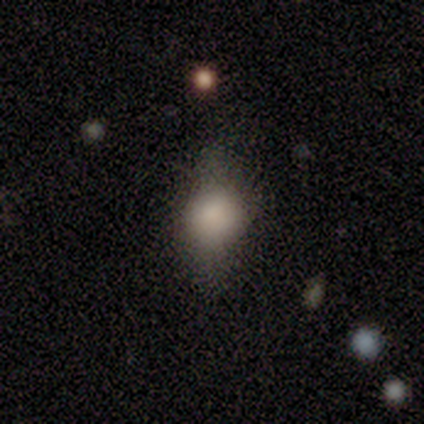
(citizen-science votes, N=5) Q: Smooth or featured?
A: smooth (60%); runner-up: featured or disk (20%)
Q: How rounded?
A: round (67%); runner-up: in between (33%)
Q: Merging?
A: none (50%); runner-up: minor disturbance (25%)